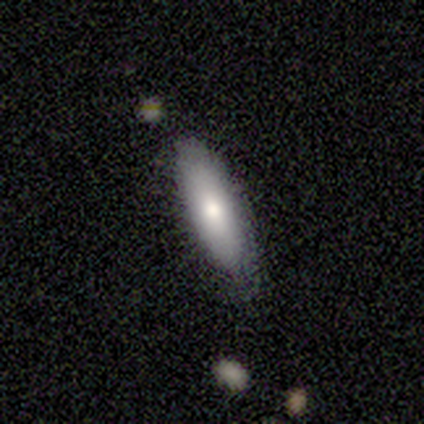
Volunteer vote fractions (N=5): Overall: smooth (80%). How rounded: in between (75%). Merging: minor disturbance (60%; none 40%).